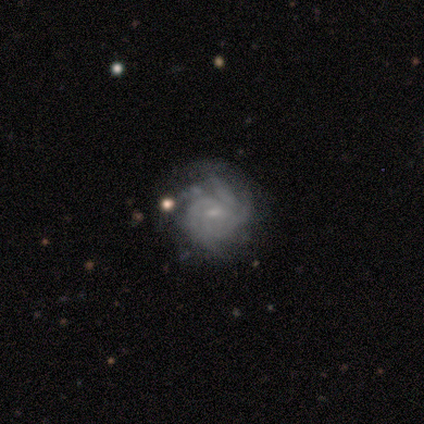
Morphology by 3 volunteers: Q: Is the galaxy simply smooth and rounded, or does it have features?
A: featured or disk — 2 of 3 (67%).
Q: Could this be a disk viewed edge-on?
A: no — 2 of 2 (100%).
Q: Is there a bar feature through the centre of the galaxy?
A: no — 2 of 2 (100%).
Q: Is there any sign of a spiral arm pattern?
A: yes — 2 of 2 (100%).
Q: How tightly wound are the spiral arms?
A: tight — 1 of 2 (50%, tied with medium).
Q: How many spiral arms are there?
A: more than 4 — 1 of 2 (50%, tied with can't tell).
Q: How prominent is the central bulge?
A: small — 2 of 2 (100%).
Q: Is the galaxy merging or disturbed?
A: none — 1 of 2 (50%, tied with major disturbance).